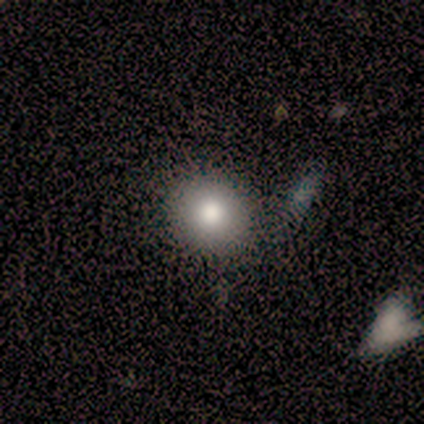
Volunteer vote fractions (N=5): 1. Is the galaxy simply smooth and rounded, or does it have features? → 60% smooth, 20% featured or disk, 20% star or artifact.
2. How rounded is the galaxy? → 67% round, 33% in between, 0% cigar-shaped.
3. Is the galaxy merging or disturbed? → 100% none, 0% minor disturbance, 0% major disturbance, 0% merger.